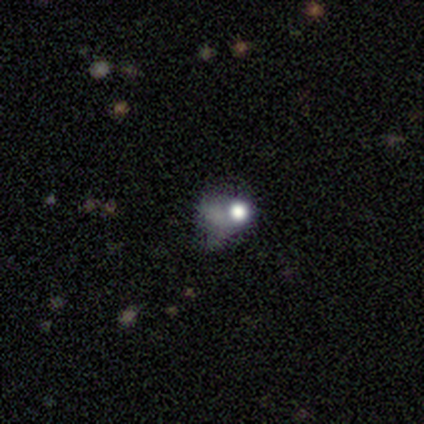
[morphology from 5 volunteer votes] Smooth or featured? featured or disk (40%, tied with star or artifact)
Edge-on disk? no (100%)
Bar? no (100%)
Spiral arms? no (100%)
Bulge size? dominant (50%, tied with large)
Merging? none (67%)